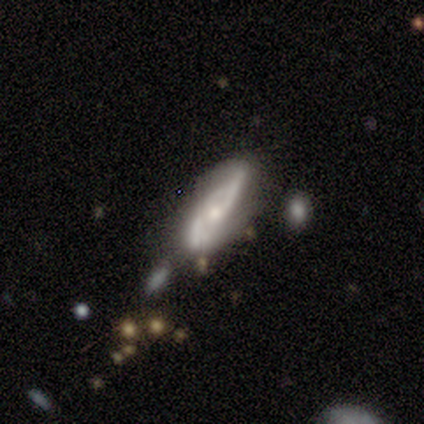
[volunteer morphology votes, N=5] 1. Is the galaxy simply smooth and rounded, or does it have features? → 60% smooth, 40% featured or disk, 0% star or artifact.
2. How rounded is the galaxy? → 67% cigar-shaped, 33% in between, 0% round.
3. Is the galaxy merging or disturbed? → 80% minor disturbance, 20% none, 0% major disturbance, 0% merger.